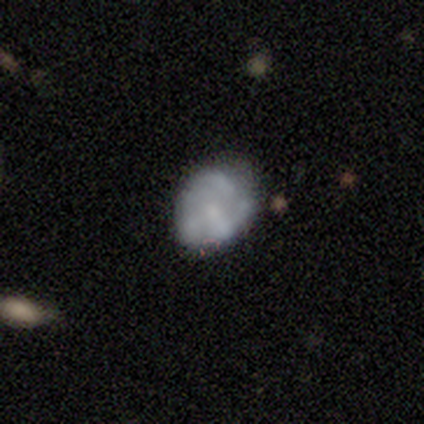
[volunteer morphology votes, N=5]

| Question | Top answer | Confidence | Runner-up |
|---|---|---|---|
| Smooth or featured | featured or disk | 60% | smooth (40%) |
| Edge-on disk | no | 100% | — |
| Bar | no | 67% | weak (33%) |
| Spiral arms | yes | 67% | no (33%) |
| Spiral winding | medium | 50% | tied: loose (50%) |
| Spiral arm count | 1 | 50% | tied: 2 (50%) |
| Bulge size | moderate | 67% | small (33%) |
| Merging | none | 40% | minor disturbance (20%) |